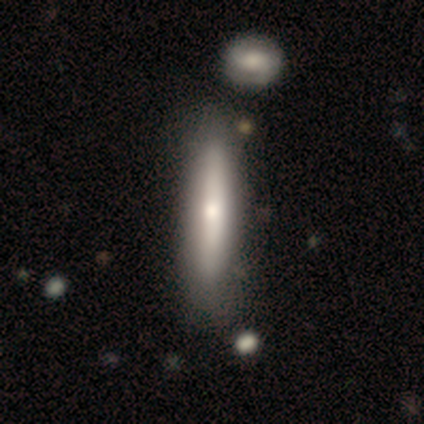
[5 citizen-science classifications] Smooth or featured? 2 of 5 (40%, tied with featured or disk) said smooth. How rounded? 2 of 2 (100%) said cigar-shaped. Merging? 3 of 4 (75%) said none.